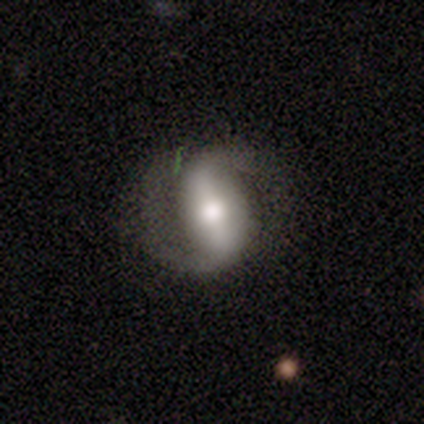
A featured or disk galaxy (100%) with a strong bar (100%), 2 (100%) medium (67%) spiral arms (100%) and a large central bulge (67%). Merging: none (100%).